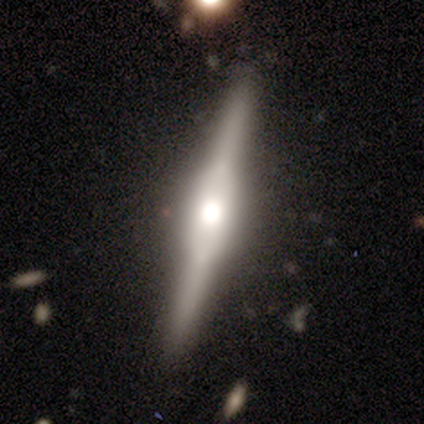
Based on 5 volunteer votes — Smooth or featured? featured or disk (80%)
Edge-on disk? yes (100%)
Edge-on bulge? boxy (75%)
Merging? none (100%)